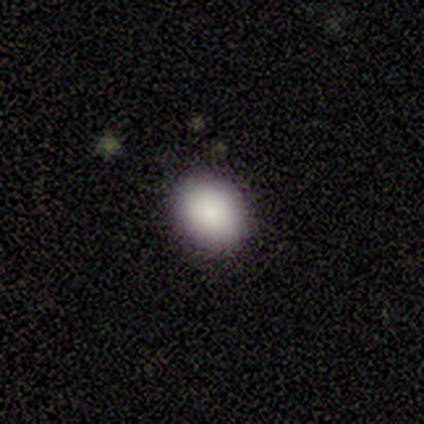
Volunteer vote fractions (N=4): A smooth galaxy with no disk features (100%) that is in between round and cigar-shaped (50%).

Vote fractions:
- Smooth or featured? smooth: 100% / featured or disk: 0% / star or artifact: 0%
- How rounded? in between: 50% / round: 25% / cigar-shaped: 25%
- Merging? none: 100% / minor disturbance: 0% / major disturbance: 0% / merger: 0%